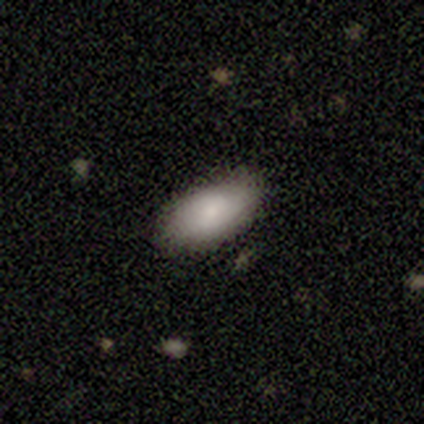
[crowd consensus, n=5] Volunteers were most divided on "smooth or featured": smooth: 60%, featured or disk: 20%, star or artifact: 20%. More confident: how rounded — in between (100%); merging — none (75%).